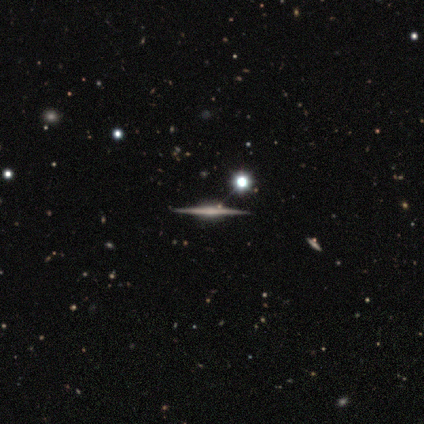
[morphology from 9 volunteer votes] Q: Smooth or featured?
A: featured or disk (100%)
Q: Edge-on disk?
A: yes (100%)
Q: Edge-on bulge?
A: rounded (67%); runner-up: boxy (33%)
Q: Merging?
A: none (78%); runner-up: minor disturbance (22%)